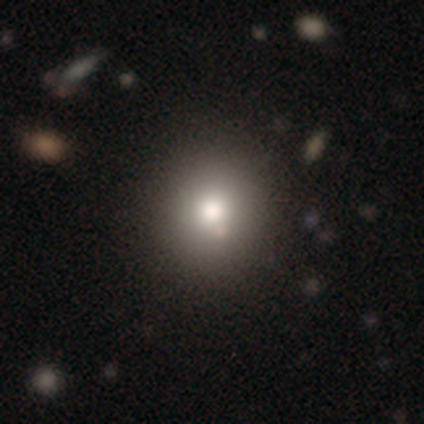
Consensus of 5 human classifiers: This appears to be a smooth galaxy with no disk features (60%) that is round (100%). Merging: none (100%).